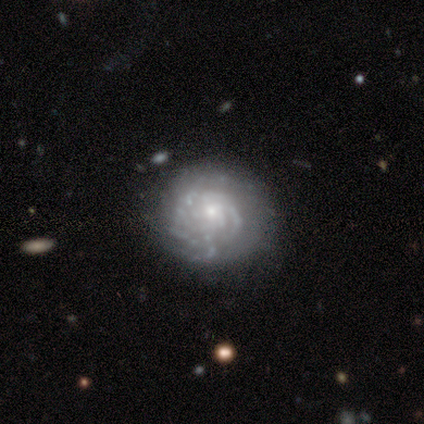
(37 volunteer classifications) Q: Smooth or featured?
A: featured or disk (81%); runner-up: smooth (14%)
Q: Edge-on disk?
A: no (97%); runner-up: yes (3%)
Q: Bar?
A: no (76%); runner-up: weak (21%)
Q: Spiral arms?
A: yes (76%); runner-up: no (24%)
Q: Spiral winding?
A: tight (59%); runner-up: medium (27%)
Q: Spiral arm count?
A: can't tell (59%); runner-up: 2 (14%)
Q: Bulge size?
A: small (86%); runner-up: moderate (10%)
Q: Merging?
A: none (60%); runner-up: minor disturbance (31%)